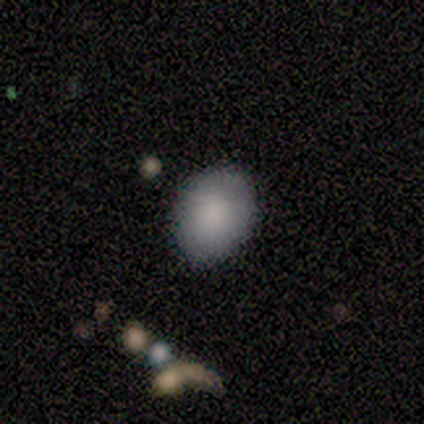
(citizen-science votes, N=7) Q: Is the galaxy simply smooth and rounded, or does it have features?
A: smooth — 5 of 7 (71%).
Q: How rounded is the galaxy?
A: in between — 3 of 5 (60%).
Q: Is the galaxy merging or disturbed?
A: none — 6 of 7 (86%).